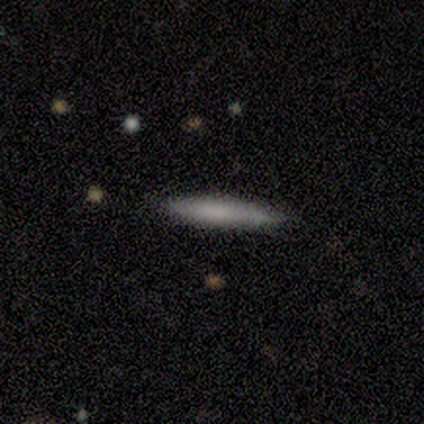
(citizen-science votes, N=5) Smooth or featured: featured or disk — 60% (smooth — 40%)
Edge-on disk: yes — 100%
Edge-on bulge: none — 100%
Merging: minor disturbance — 60% (none — 40%)